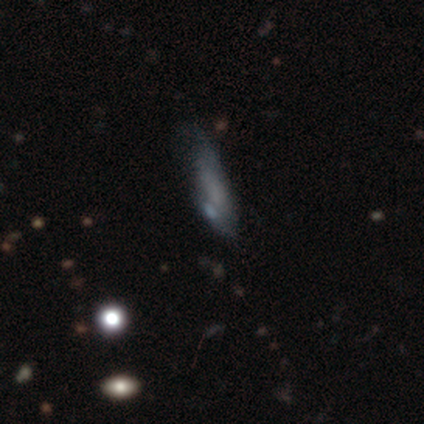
This appears to be a smooth galaxy with no disk features (40%, tied with featured or disk) that is in between round and cigar-shaped (50%, tied with cigar-shaped). Merging: none (50%, tied with minor disturbance).